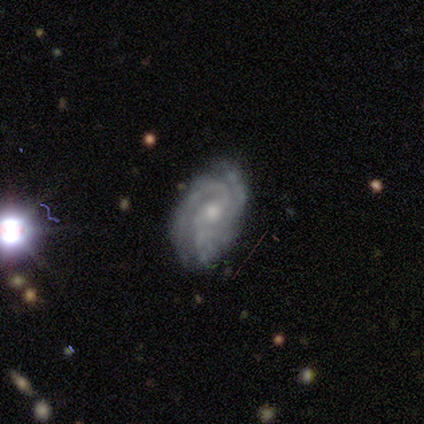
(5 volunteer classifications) Overall: featured or disk (100%). Edge-on disk: no (100%). Bar: no (60%; weak 40%). Spiral arms: yes (100%). Spiral arm count: 2 (40%, tied with 3). Spiral winding: medium (60%; tight 40%). Bulge size: small (60%; moderate 40%). Merging: none (80%).